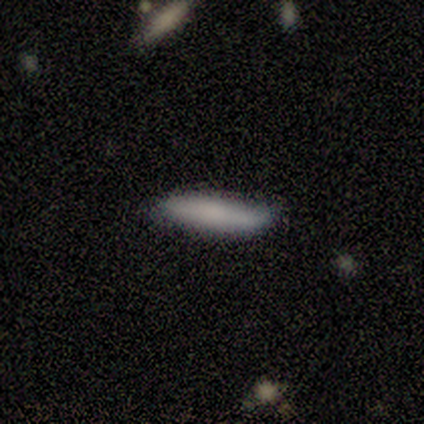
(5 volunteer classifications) smooth 60%, featured or disk 40%, star or artifact 0%. Down the decision tree: how rounded — cigar-shaped (100%); merging — none (80%).